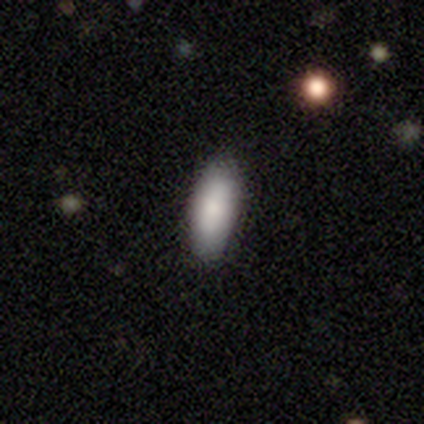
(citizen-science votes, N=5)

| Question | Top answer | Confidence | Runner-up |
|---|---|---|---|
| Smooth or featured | smooth | 100% | — |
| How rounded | in between | 100% | — |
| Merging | none | 100% | — |